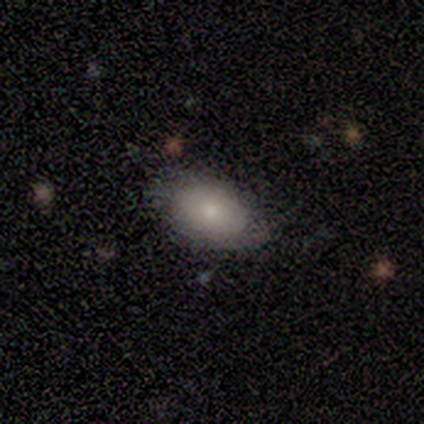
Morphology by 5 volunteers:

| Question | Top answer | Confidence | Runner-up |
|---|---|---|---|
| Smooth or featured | smooth | 60% | featured or disk (40%) |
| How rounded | in between | 100% | — |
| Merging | none | 60% | minor disturbance (40%) |